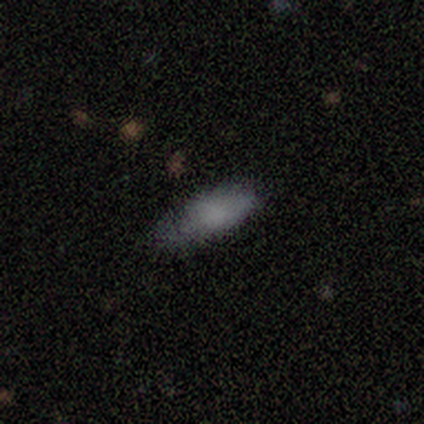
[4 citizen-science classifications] Q: Smooth or featured?
A: smooth (75%); runner-up: star or artifact (25%)
Q: How rounded?
A: cigar-shaped (67%); runner-up: in between (33%)
Q: Merging?
A: minor disturbance (67%); runner-up: none (33%)